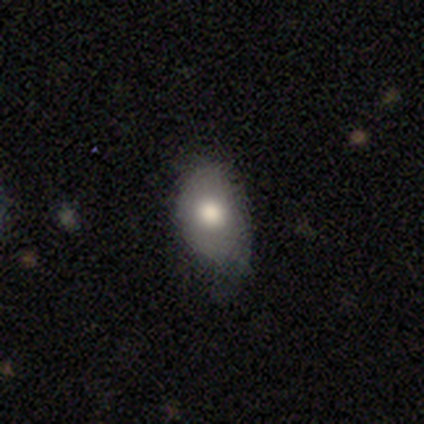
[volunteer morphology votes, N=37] Smooth or featured?
  - smooth: 62% *
  - featured or disk: 24%
  - star or artifact: 14%
How rounded?
  - in between: 87% *
  - round: 13%
  - cigar-shaped: 0%
Merging?
  - none: 47% * (tied)
  - minor disturbance: 47% * (tied)
  - major disturbance: 6%
  - merger: 0%